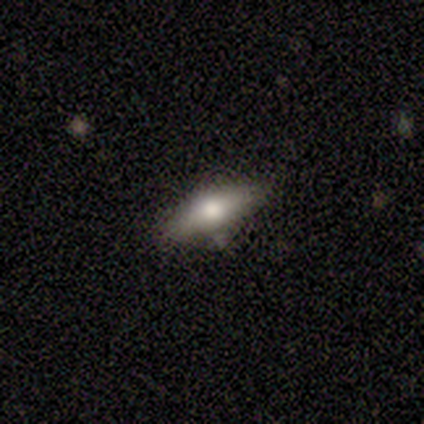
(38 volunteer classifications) Volunteers were most divided on "how rounded": in between: 59%, cigar-shaped: 41%, round: 0%. More confident: merging — none (78%); smooth or featured — smooth (58%).